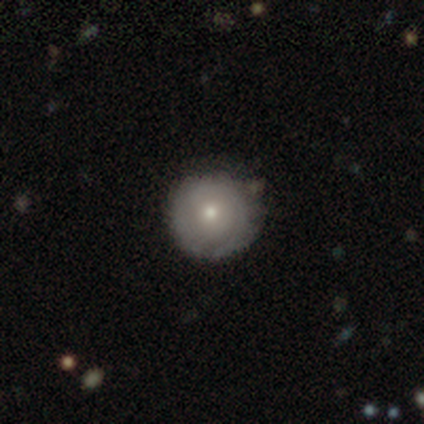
smooth-or-featured: smooth: 60% | featured or disk: 40% | star or artifact: 0%
  how-rounded: round: 100% | in between: 0% | cigar-shaped: 0%
  merging: none: 80% | minor disturbance: 20% | major disturbance: 0% | merger: 0%